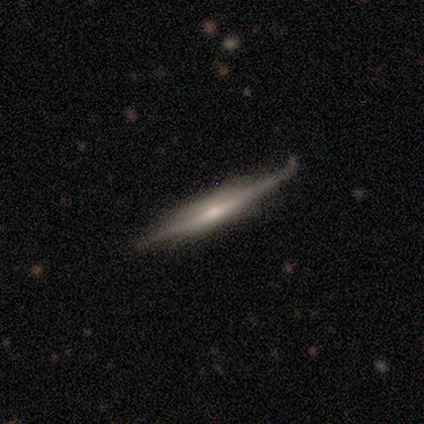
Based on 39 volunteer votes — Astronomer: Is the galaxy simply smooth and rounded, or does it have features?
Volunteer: featured or disk — 69%.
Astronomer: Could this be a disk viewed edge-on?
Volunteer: yes — 96%.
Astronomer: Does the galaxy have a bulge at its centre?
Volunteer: boxy — 42% (runner-up: rounded, 31%).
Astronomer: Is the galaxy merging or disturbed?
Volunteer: none — 77%.